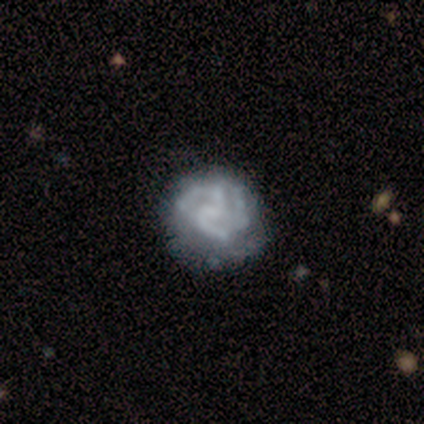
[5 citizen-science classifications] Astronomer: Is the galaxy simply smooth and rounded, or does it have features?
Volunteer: featured or disk — 100%.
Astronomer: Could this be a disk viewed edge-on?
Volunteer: no — 80%.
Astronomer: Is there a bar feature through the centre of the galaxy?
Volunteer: no — 100%.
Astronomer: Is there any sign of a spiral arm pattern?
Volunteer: yes — 100%.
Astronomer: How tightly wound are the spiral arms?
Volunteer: medium — 75%.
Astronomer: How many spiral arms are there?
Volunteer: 3 — 50%.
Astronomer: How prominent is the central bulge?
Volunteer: none — 75%.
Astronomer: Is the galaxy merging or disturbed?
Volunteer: minor disturbance — 60% (runner-up: none, 40%).